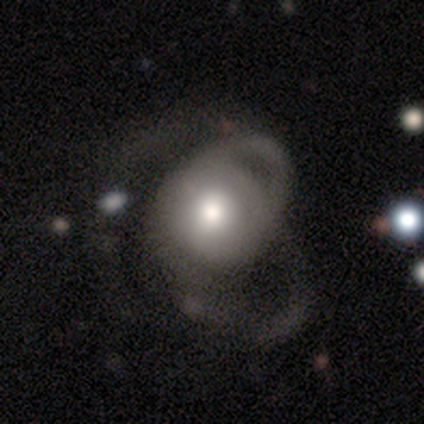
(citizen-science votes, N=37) Morphology: type=smooth (49%); roundness=round (89%); merging=major disturbance (46%).